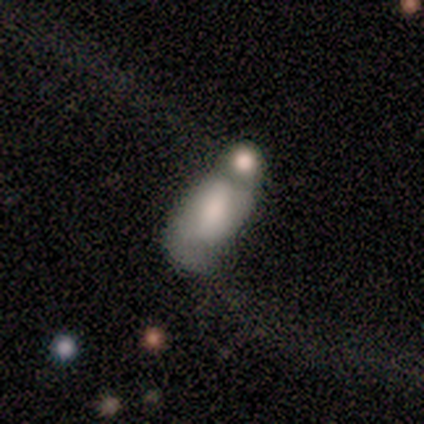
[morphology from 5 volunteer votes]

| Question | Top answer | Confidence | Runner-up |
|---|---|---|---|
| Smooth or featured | smooth | 60% | featured or disk (40%) |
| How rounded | in between | 100% | — |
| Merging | merger | 80% | none (20%) |